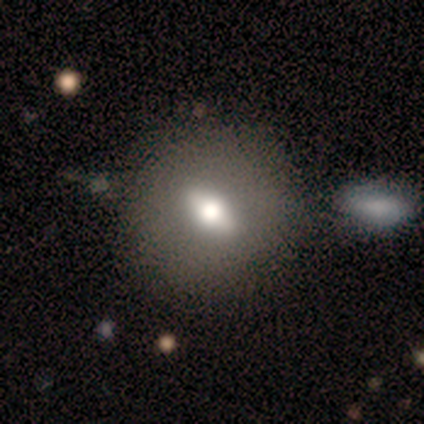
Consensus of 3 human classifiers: Smooth or featured?
  - featured or disk: 67% *
  - smooth: 33%
  - star or artifact: 0%
Edge-on disk?
  - no: 100% *
  - yes: 0%
Bar?
  - strong: 50% * (tied)
  - weak: 50% * (tied)
  - no: 0%
Spiral arms?
  - no: 100% *
  - yes: 0%
Bulge size?
  - moderate: 50% * (tied)
  - small: 50% * (tied)
  - dominant: 0%
  - large: 0%
  - none: 0%
Merging?
  - none: 33% * (tied)
  - minor disturbance: 33% * (tied)
  - major disturbance: 33% * (tied)
  - merger: 0%